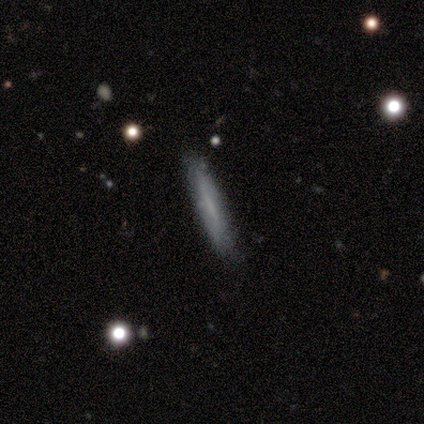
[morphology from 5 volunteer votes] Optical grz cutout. It shows a featured or disk galaxy (60%) viewed edge-on (100%) with no central bulge (100%). Merging: none (100%).